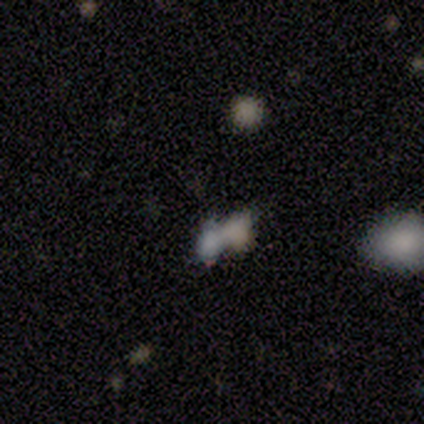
Q: Smooth or featured?
A: smooth (75%); runner-up: star or artifact (17%)
Q: How rounded?
A: in between (67%); runner-up: round (22%)
Q: Merging?
A: merger (70%); runner-up: none (20%)